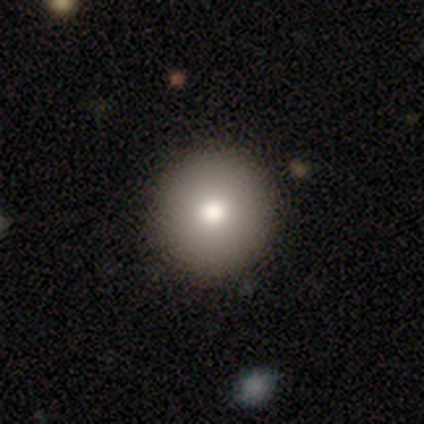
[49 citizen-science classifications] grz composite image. It shows a smooth galaxy with no disk features (76%) that is round (100%). Merging: none (88%).